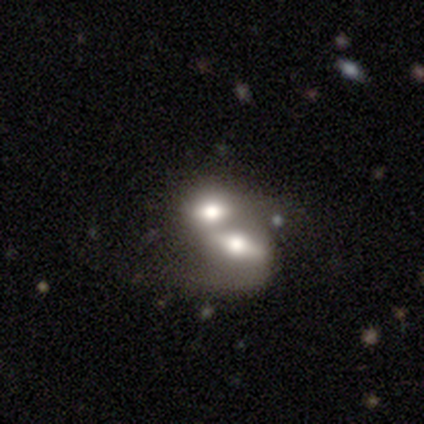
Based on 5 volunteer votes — smooth-or-featured: smooth: 40% (tied) | featured or disk: 40% (tied) | star or artifact: 20%
  how-rounded: in between: 100% | round: 0% | cigar-shaped: 0%
  merging: merger: 100% | none: 0% | minor disturbance: 0% | major disturbance: 0%